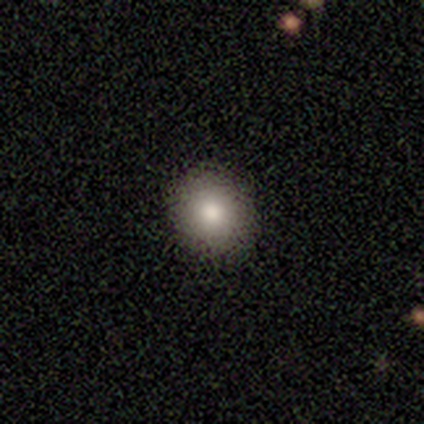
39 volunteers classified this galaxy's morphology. This is clearly a smooth galaxy (92%). How rounded: clearly round (86%). Merging: clearly none (89%).